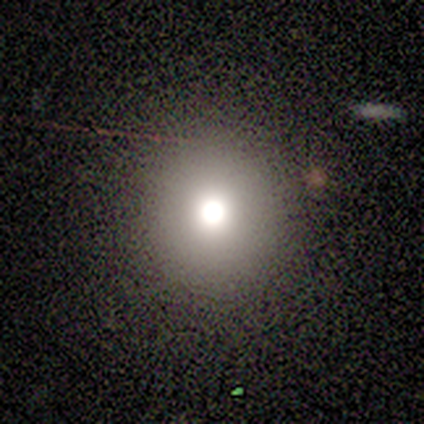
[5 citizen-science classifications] Overall: smooth (80%). How rounded: round (100%). Merging: none (100%).